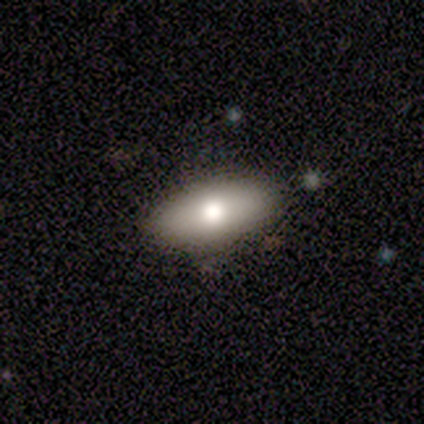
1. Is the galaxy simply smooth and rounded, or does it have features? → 68% smooth, 26% featured or disk, 5% star or artifact.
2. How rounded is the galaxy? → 92% in between, 8% cigar-shaped, 0% round.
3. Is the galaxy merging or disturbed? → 92% none, 8% minor disturbance, 0% major disturbance, 0% merger.